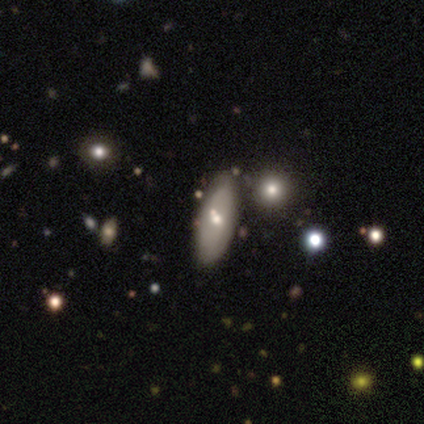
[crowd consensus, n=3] smooth_or_featured: star or artifact (p=0.67) [alt: smooth p=0.33]